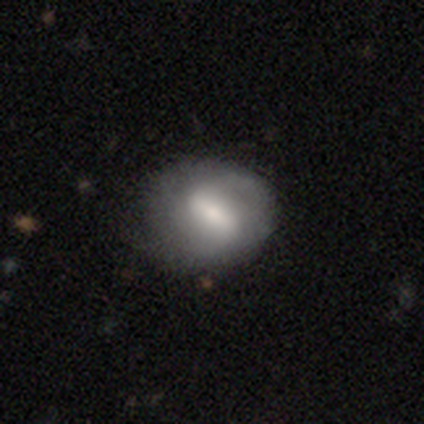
smooth_or_featured: featured or disk (p=0.80) [alt: smooth p=0.20]
disk_edge_on: no (p=1.00)
bar: strong (p=0.75) [alt: weak p=0.25]
has_spiral_arms: yes (p=0.50) [tied with: no p=0.50]
spiral_winding: loose (p=1.00)
spiral_arm_count: 2 (p=0.50) [tied with: can't tell p=0.50]
bulge_size: small (p=0.75) [alt: moderate p=0.25]
merging: none (p=0.80) [alt: minor disturbance p=0.20]